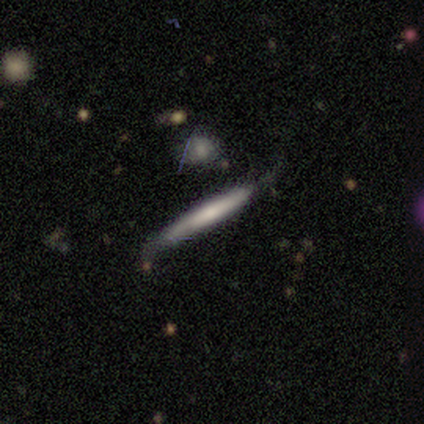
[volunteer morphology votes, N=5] Volunteers were most divided on "smooth or featured": featured or disk: 60%, smooth: 40%, star or artifact: 0%. More confident: edge-on disk — yes (100%); merging — none (80%); edge-on bulge — none (67%).